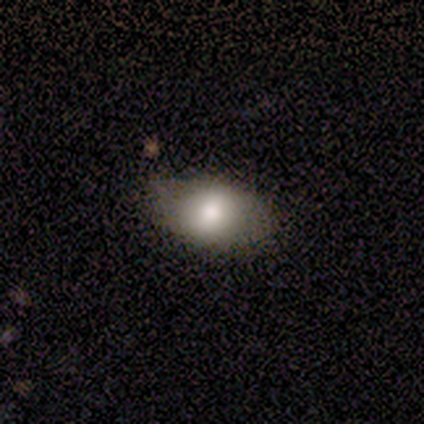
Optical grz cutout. It shows a smooth galaxy with no disk features (82%) that is in between round and cigar-shaped (67%). Merging: none (82%).